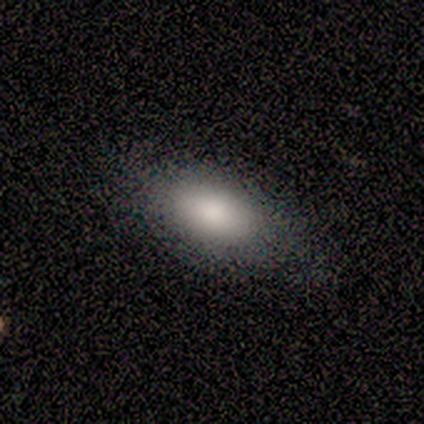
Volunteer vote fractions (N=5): This is clearly a smooth galaxy (100%). How rounded: clearly in between (100%). Merging: clearly none (100%).